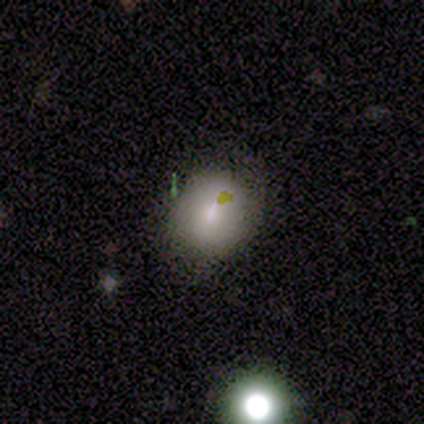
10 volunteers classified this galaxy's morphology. Smooth or featured?
  - smooth: 80% *
  - featured or disk: 10%
  - star or artifact: 10%
How rounded?
  - round: 75% *
  - in between: 25%
  - cigar-shaped: 0%
Merging?
  - minor disturbance: 56% *
  - none: 44%
  - major disturbance: 0%
  - merger: 0%